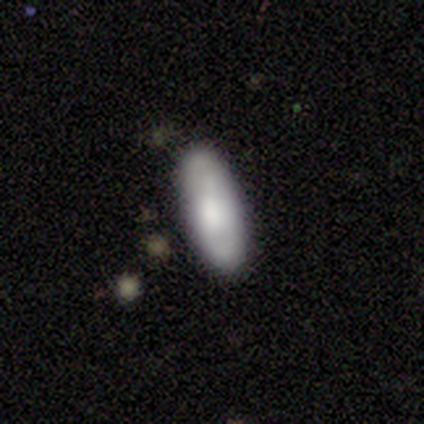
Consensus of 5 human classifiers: Smooth or featured?
  - smooth: 80% *
  - featured or disk: 20%
  - star or artifact: 0%
How rounded?
  - in between: 100% *
  - round: 0%
  - cigar-shaped: 0%
Merging?
  - none: 100% *
  - minor disturbance: 0%
  - major disturbance: 0%
  - merger: 0%